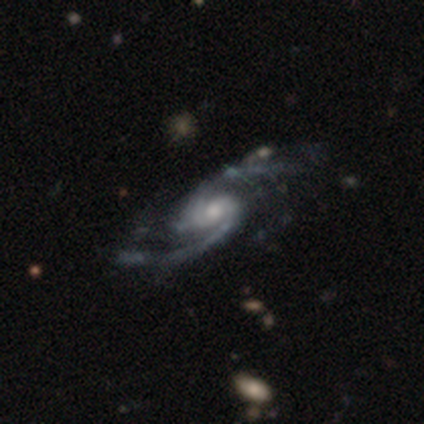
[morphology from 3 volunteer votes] Smooth or featured? 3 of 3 (100%) said featured or disk. Edge-on disk? 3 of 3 (100%) said no. Bar? 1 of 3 (33%, tied with weak and no) said strong. Spiral arms? 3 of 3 (100%) said yes. Spiral winding? 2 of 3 (67%) said tight. Spiral arm count? 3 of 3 (100%) said 2. Bulge size? 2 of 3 (67%) said moderate. Merging? 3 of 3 (100%) said none.